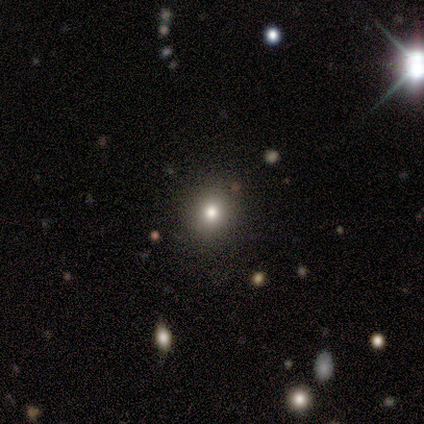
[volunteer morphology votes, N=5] Q: Smooth or featured?
A: smooth (100%)
Q: How rounded?
A: round (80%); runner-up: in between (20%)
Q: Merging?
A: none (100%)